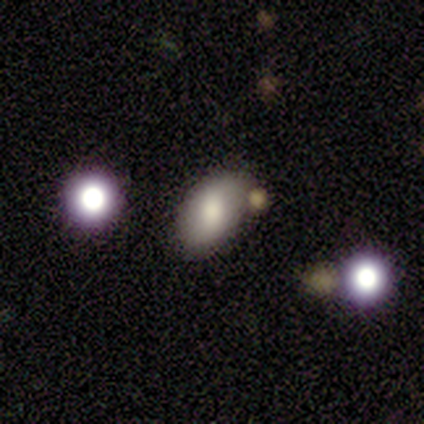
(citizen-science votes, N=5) Morphology: type=smooth (60%); roundness=in between (100%); merging=none (100%).